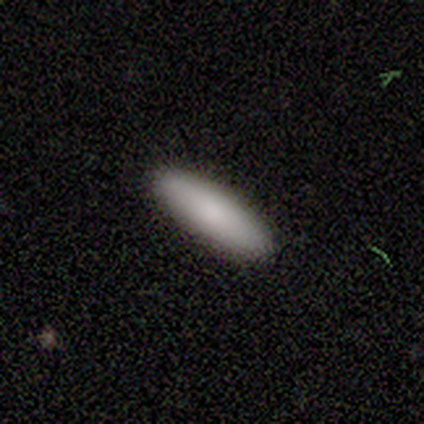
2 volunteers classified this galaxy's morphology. Consensus on every question: smooth or featured — smooth (100%); how rounded — cigar-shaped (100%); merging — none (100%).